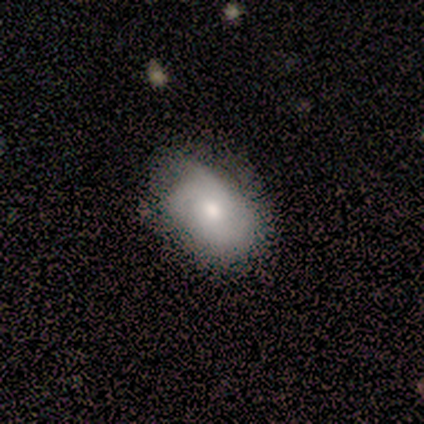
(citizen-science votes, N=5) A smooth galaxy with no disk features (40%, tied with featured or disk) that is in between round and cigar-shaped (100%).

Vote fractions:
- Smooth or featured? smooth: 40% (tied) / featured or disk: 40% (tied) / star or artifact: 20%
- How rounded? in between: 100% / round: 0% / cigar-shaped: 0%
- Merging? none: 75% / minor disturbance: 25% / major disturbance: 0% / merger: 0%